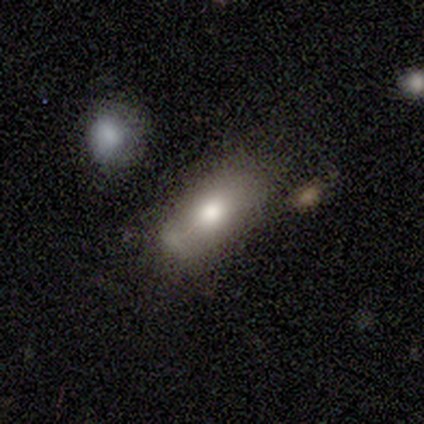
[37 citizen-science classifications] smooth-or-featured: smooth: 81% | featured or disk: 11% | star or artifact: 8%
  how-rounded: in between: 87% | cigar-shaped: 10% | round: 3%
  merging: none: 35% (tied) | minor disturbance: 35% (tied) | major disturbance: 15% | merger: 15%